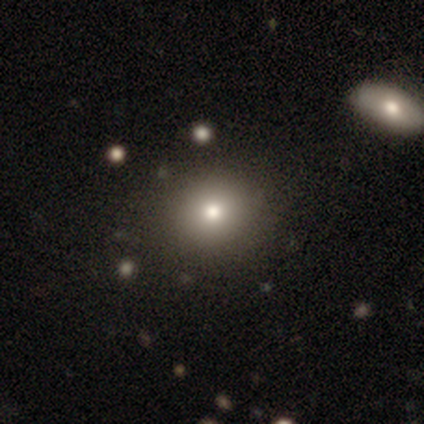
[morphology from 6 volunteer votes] A featured or disk galaxy (50%) with no bar (100%), no spiral arms (100%) and a moderate central bulge (67%).

Vote fractions:
- Smooth or featured? featured or disk: 50% / smooth: 33% / star or artifact: 17%
- Edge-on disk? no: 100% / yes: 0%
- Bar? no: 100% / strong: 0% / weak: 0%
- Spiral arms? no: 100% / yes: 0%
- Bulge size? moderate: 67% / large: 33% / dominant: 0% / small: 0% / none: 0%
- Merging? none: 80% / minor disturbance: 20% / major disturbance: 0% / merger: 0%